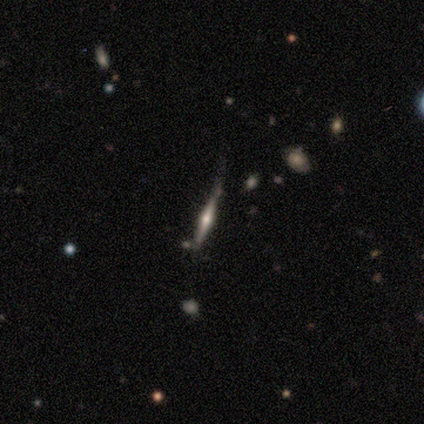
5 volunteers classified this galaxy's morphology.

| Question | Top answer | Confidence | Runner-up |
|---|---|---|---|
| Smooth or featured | featured or disk | 80% | star or artifact (20%) |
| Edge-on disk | yes | 100% | — |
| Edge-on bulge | rounded | 75% | none (25%) |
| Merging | none | 75% | minor disturbance (25%) |